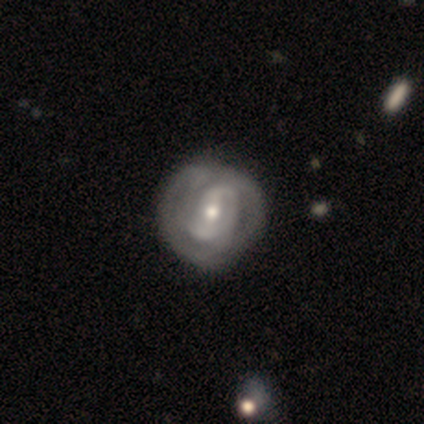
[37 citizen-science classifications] A featured or disk galaxy (97%) with a weak bar (44%), 2 (54%) tight (64%) spiral arms (82%) and a moderate central bulge (62%).

Vote fractions:
- Smooth or featured? featured or disk: 97% / smooth: 3% / star or artifact: 0%
- Edge-on disk? no: 94% / yes: 6%
- Bar? weak: 44% / strong: 35% / no: 21%
- Spiral arms? yes: 82% / no: 18%
- Spiral winding? tight: 64% / medium: 21% / loose: 14%
- Spiral arm count? 2: 54% / can't tell: 25% / 3: 14% / 1: 4% / 4: 4% / more than 4: 0%
- Bulge size? moderate: 62% / small: 32% / large: 6% / dominant: 0% / none: 0%
- Merging? none: 59% / minor disturbance: 16% / major disturbance: 0% / merger: 0%